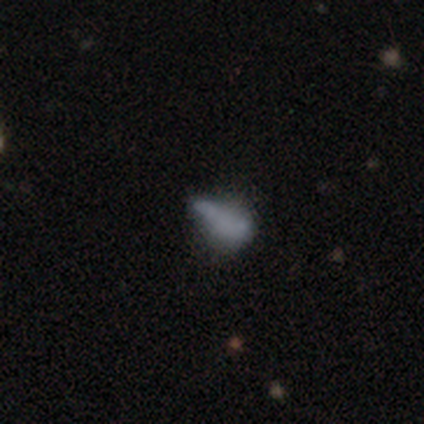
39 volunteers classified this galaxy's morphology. Smooth or featured? 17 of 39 (44%) said featured or disk. Edge-on disk? 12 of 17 (71%) said no. Bar? 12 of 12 (100%) said no. Spiral arms? 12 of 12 (100%) said no. Bulge size? 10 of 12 (83%) said none. Merging? 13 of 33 (39%) said minor disturbance.